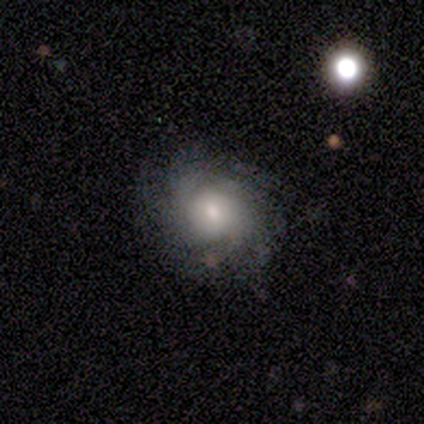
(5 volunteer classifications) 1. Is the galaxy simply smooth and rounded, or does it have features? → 60% featured or disk, 40% smooth, 0% star or artifact.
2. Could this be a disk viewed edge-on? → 100% no, 0% yes.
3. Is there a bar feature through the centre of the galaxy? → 67% no, 33% weak, 0% strong.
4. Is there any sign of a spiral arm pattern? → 67% yes, 33% no.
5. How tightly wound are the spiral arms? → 50% medium (tied), 50% loose (tied), 0% tight.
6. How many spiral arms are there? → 50% 3 (tied), 50% can't tell (tied), 0% 1, 0% 2, 0% 4, 0% more than 4.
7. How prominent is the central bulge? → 67% moderate, 33% small, 0% dominant, 0% large, 0% none.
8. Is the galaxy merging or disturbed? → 60% none, 20% minor disturbance, 20% major disturbance, 0% merger.